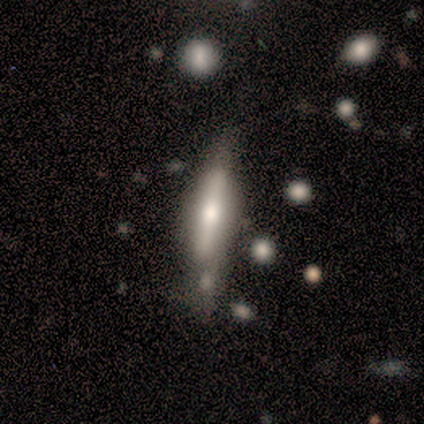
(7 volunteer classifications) This is possibly a featured or disk galaxy (57%). It is possibly viewed edge-on (50%, tied with no). Edge-on bulge: possibly boxy (50%, tied with rounded). Merging: possibly merger (50%).